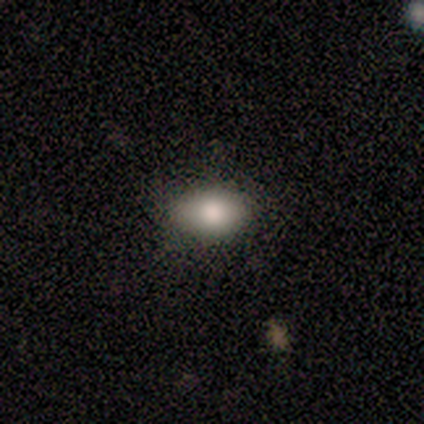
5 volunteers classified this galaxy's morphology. A smooth galaxy with no disk features (80%) that is in between round and cigar-shaped (100%). Merging: none (80%).